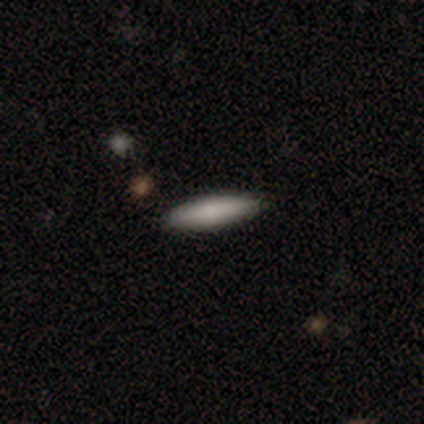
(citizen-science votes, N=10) Morphology: type=smooth (100%); roundness=cigar-shaped (60%); merging=none (100%).